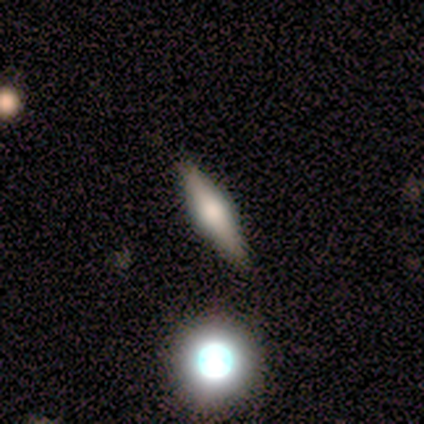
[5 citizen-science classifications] smooth_or_featured: smooth (p=0.60) [alt: featured or disk p=0.20]
how_rounded: round (p=0.33) [tied with: in between p=0.33, cigar-shaped p=0.33]
merging: none (p=1.00)